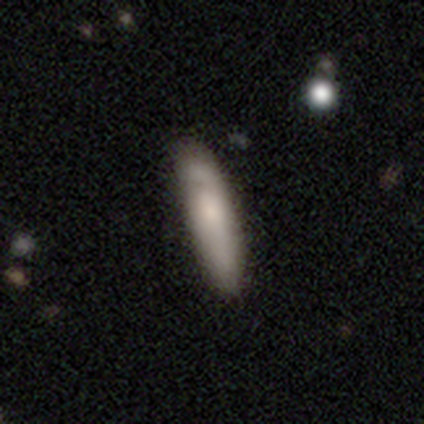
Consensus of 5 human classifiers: Smooth or featured? 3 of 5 (60%) said smooth. How rounded? 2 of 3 (67%) said cigar-shaped. Merging? 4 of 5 (80%) said none.